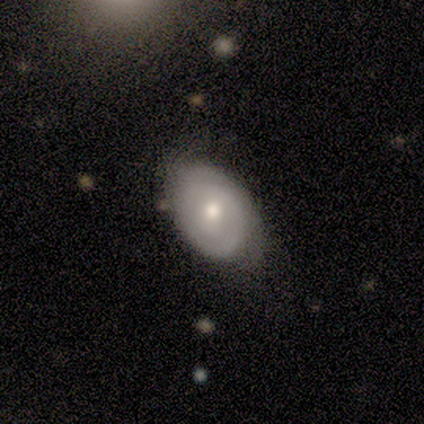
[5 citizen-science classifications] Smooth or featured? featured or disk (80%)
Edge-on disk? no (100%)
Bar? no (75%)
Spiral arms? yes (100%)
Spiral winding? medium (75%)
Spiral arm count? 2 (75%)
Bulge size? moderate (75%)
Merging? none (100%)